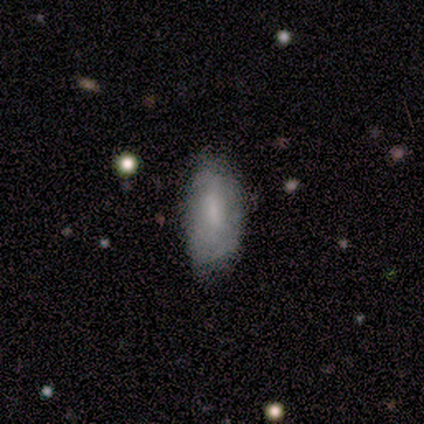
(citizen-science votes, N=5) This is clearly a smooth galaxy (80%). How rounded: clearly in between (100%). Merging: marginally none (40%, tied with major disturbance).